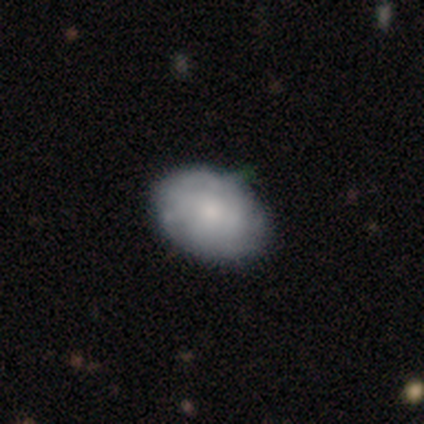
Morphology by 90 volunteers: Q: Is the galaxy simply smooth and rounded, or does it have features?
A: smooth — 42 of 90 (47%).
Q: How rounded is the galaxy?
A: in between — 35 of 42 (83%).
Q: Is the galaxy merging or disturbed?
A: none — 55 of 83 (66%).